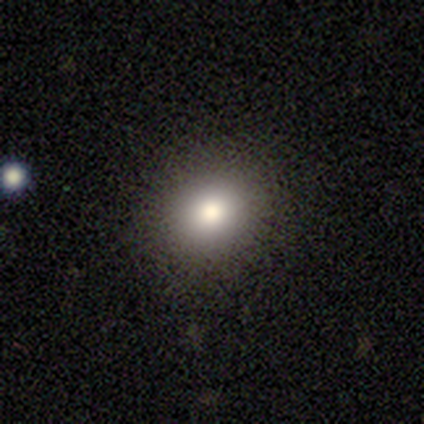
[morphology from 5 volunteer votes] Q: Smooth or featured?
A: smooth (80%); runner-up: featured or disk (20%)
Q: How rounded?
A: round (50%); tied with: in between (50%)
Q: Merging?
A: none (80%); runner-up: minor disturbance (20%)